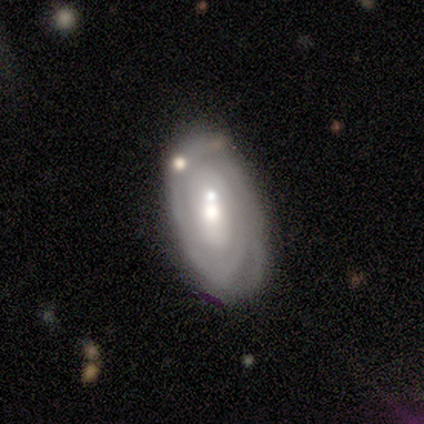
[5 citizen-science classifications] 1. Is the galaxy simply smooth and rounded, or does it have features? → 80% featured or disk, 20% smooth, 0% star or artifact.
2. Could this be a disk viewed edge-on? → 100% no, 0% yes.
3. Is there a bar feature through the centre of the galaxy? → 100% no, 0% strong, 0% weak.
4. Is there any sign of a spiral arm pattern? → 100% yes, 0% no.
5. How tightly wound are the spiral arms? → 100% tight, 0% medium, 0% loose.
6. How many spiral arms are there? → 25% 2 (tied), 25% 3 (tied), 25% 4 (tied), 25% can't tell (tied), 0% 1, 0% more than 4.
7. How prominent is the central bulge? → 75% moderate, 25% small, 0% dominant, 0% large, 0% none.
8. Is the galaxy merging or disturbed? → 80% none, 20% minor disturbance, 0% major disturbance, 0% merger.